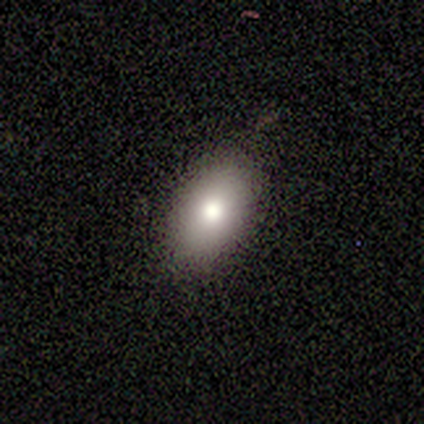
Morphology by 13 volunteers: smooth_or_featured: smooth (p=0.85) [alt: featured or disk p=0.15]
how_rounded: in between (p=0.82) [alt: round p=0.18]
merging: none (p=0.77) [alt: minor disturbance p=0.15]